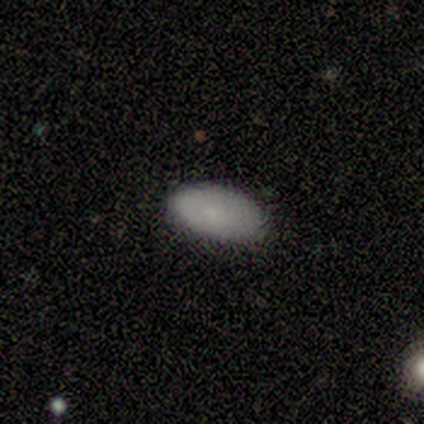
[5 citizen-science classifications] Smooth or featured? 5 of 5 (100%) said smooth. How rounded? 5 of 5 (100%) said in between. Merging? 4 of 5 (80%) said none.